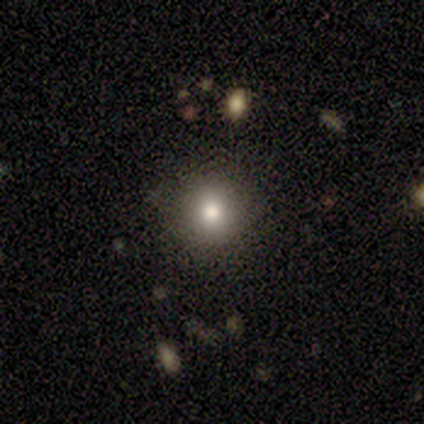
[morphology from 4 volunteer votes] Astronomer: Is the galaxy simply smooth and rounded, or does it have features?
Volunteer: smooth — 50%, tied with featured or disk at 50%.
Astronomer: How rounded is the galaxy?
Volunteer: round — 100%.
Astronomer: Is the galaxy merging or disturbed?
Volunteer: none — 100%.